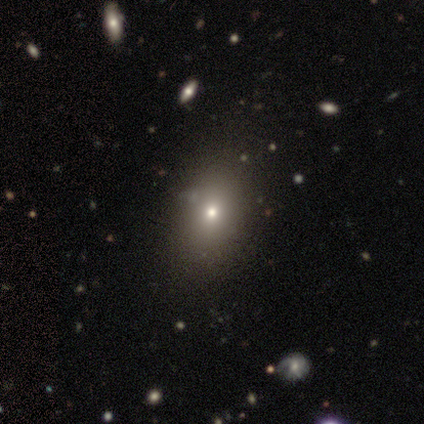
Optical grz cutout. It shows a smooth galaxy with no disk features (67%) that is in between round and cigar-shaped (70%). Merging: none (64%).